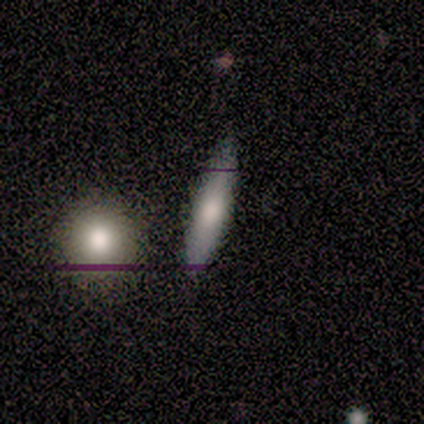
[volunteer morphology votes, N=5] type=smooth (60%); roundness=in between (67%); merging=none (100%).